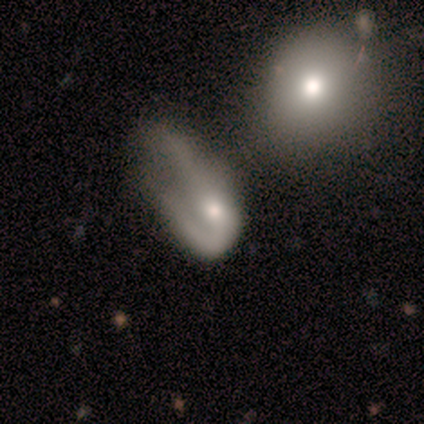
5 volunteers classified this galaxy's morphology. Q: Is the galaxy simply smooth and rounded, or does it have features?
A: featured or disk — 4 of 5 (80%).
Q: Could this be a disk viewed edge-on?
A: no — 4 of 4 (100%).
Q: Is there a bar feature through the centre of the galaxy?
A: no — 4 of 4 (100%).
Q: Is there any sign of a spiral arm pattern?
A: yes — 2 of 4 (50%, tied with no).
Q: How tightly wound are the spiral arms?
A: medium — 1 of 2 (50%, tied with loose).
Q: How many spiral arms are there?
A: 1 — 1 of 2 (50%, tied with 2).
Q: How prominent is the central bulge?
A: moderate — 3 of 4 (75%).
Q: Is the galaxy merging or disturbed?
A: major disturbance — 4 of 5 (80%).